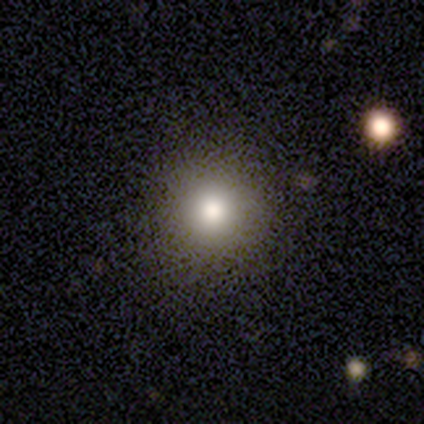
Volunteers were most divided on "smooth or featured": smooth: 50%, featured or disk: 25%, star or artifact: 25%. More confident: how rounded — round (100%); merging — none (100%).